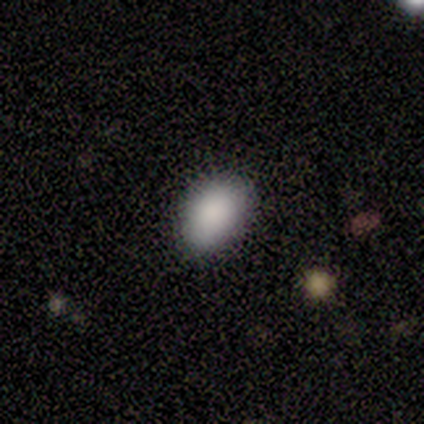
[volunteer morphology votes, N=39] smooth 92%, star or artifact 5%, featured or disk 3%. Down the decision tree: how rounded — in between (86%); merging — none (81%).